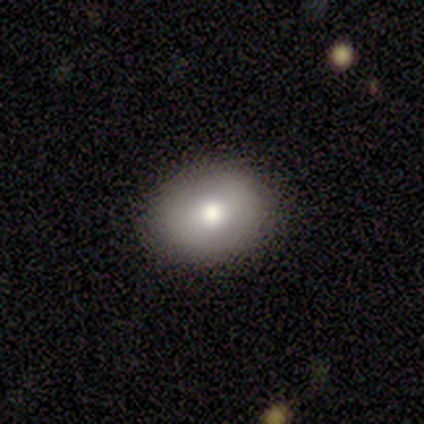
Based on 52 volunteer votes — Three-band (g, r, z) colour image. It shows a smooth galaxy with no disk features (75%) that is in between round and cigar-shaped (59%). Merging: none (88%).